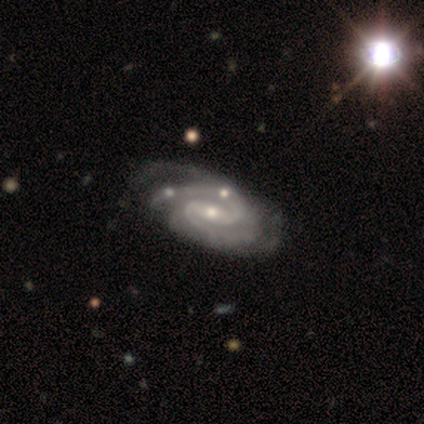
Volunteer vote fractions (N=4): smooth-or-featured: featured or disk: 100% | smooth: 0% | star or artifact: 0%
  disk-edge-on: no: 75% | yes: 25%
    bar: weak: 100% | strong: 0% | no: 0%
    has-spiral-arms: yes: 100% | no: 0%
      spiral-winding: tight: 67% | medium: 33% | loose: 0%
      spiral-arm-count: 3: 67% | 2: 33% | 1: 0% | 4: 0% | more than 4: 0% | can't tell: 0%
    bulge-size: small: 100% | dominant: 0% | large: 0% | moderate: 0% | none: 0%
  merging: none: 75% | major disturbance: 25% | minor disturbance: 0% | merger: 0%